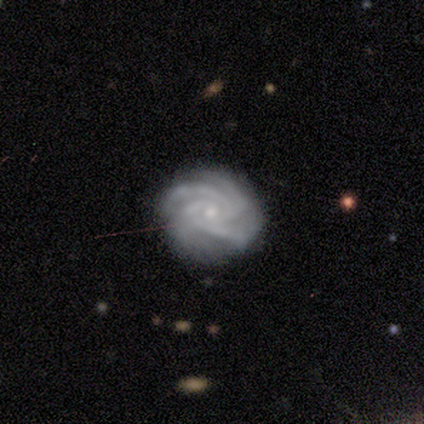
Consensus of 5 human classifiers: Smooth or featured? featured or disk (100%)
Edge-on disk? no (100%)
Bar? no (100%)
Spiral arms? yes (100%)
Spiral winding? tight (100%)
Spiral arm count? 4 (80%)
Bulge size? small (60%)
Merging? none (100%)